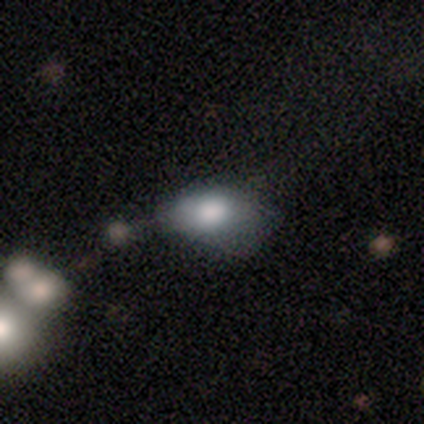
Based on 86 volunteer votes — smooth-or-featured: smooth: 67% | featured or disk: 21% | star or artifact: 12%
  how-rounded: in between: 90% | round: 9% | cigar-shaped: 2%
  merging: none: 36% | minor disturbance: 30% | major disturbance: 28% | merger: 7%